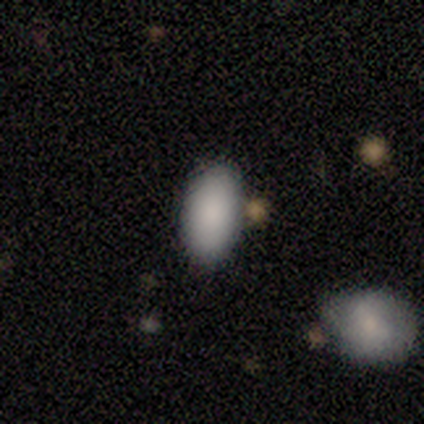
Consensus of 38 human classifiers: This is clearly a smooth galaxy (87%). How rounded: clearly in between (97%). Merging: likely none (71%).